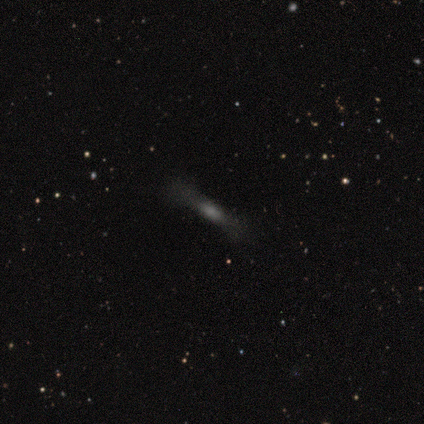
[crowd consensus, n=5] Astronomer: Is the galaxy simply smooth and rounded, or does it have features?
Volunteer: star or artifact — 60% (runner-up: featured or disk, 40%).